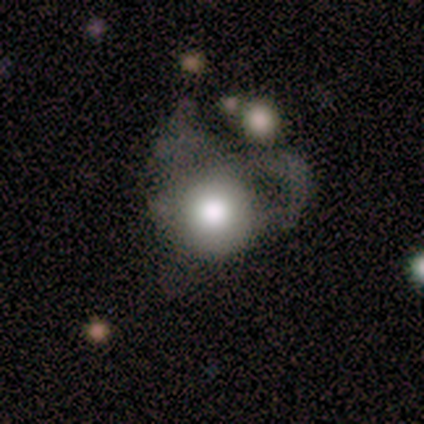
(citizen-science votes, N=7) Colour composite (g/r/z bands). It shows a smooth galaxy with no disk features (57%) that is round (100%). Merging: major disturbance (57%).